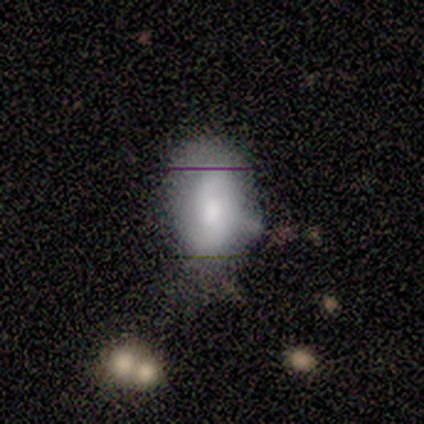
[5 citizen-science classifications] A featured or disk galaxy (60%) with a weak bar (50%, tied with no), 2 (100%) loose (100%) spiral arms (100%) and a moderate central bulge (100%).

Vote fractions:
- Smooth or featured? featured or disk: 60% / smooth: 40% / star or artifact: 0%
- Edge-on disk? no: 67% / yes: 33%
- Bar? weak: 50% (tied) / no: 50% (tied) / strong: 0%
- Spiral arms? yes: 100% / no: 0%
- Spiral winding? loose: 100% / tight: 0% / medium: 0%
- Spiral arm count? 2: 100% / 1: 0% / 3: 0% / 4: 0% / more than 4: 0% / can't tell: 0%
- Bulge size? moderate: 100% / dominant: 0% / large: 0% / small: 0% / none: 0%
- Merging? none: 60% / minor disturbance: 40% / major disturbance: 0% / merger: 0%